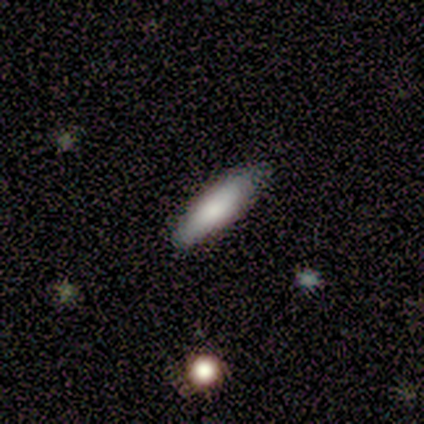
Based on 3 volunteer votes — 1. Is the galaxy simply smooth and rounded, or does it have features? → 67% smooth, 33% featured or disk, 0% star or artifact.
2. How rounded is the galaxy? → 100% cigar-shaped, 0% round, 0% in between.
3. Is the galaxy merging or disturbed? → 67% none, 33% minor disturbance, 0% major disturbance, 0% merger.